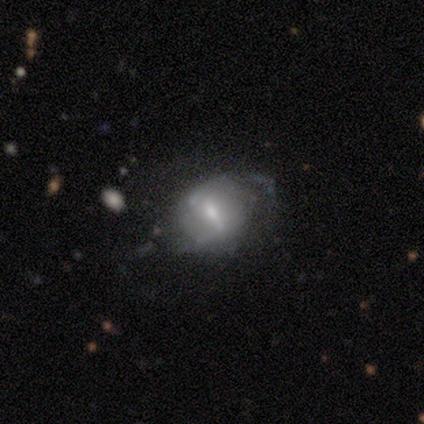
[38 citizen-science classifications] Smooth or featured?
  - featured or disk: 68% *
  - smooth: 24%
  - star or artifact: 8%
Edge-on disk?
  - no: 88% *
  - yes: 12%
Bar?
  - weak: 43% *
  - strong: 39%
  - no: 17%
Spiral arms?
  - yes: 52% *
  - no: 48%
Spiral winding?
  - loose: 58% *
  - tight: 25%
  - medium: 17%
Spiral arm count?
  - 2: 75% *
  - 1: 17%
  - can't tell: 8%
  - 3: 0%
  - 4: 0%
  - more than 4: 0%
Bulge size?
  - small: 43% *
  - moderate: 39%
  - large: 9%
  - none: 9%
  - dominant: 0%
Merging?
  - none: 57% *
  - minor disturbance: 29%
  - major disturbance: 9%
  - merger: 6%